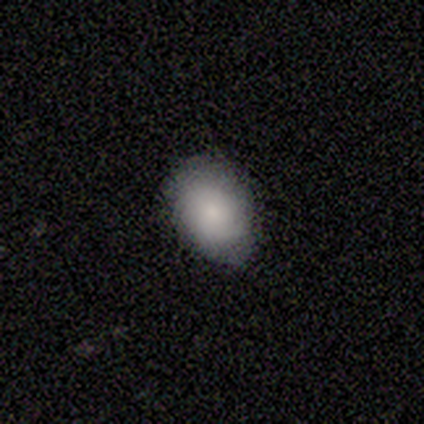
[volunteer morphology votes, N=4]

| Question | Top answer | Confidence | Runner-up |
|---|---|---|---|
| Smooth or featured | smooth | 100% | — |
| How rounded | in between | 75% | round (25%) |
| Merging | minor disturbance | 75% | none (25%) |